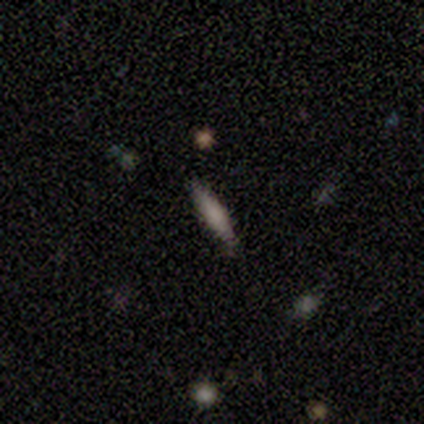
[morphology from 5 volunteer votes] smooth 60%, featured or disk 40%, star or artifact 0%. Down the decision tree: how rounded — cigar-shaped (100%); merging — none (80%).